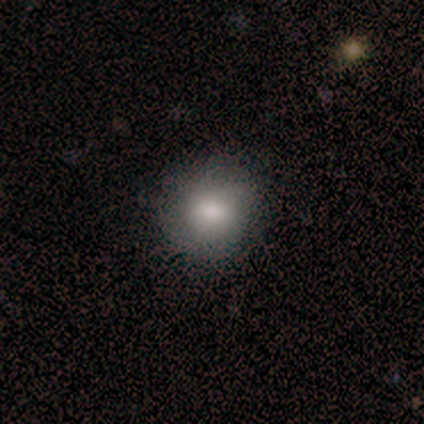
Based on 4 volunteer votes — Q: Smooth or featured?
A: smooth (75%); runner-up: featured or disk (25%)
Q: How rounded?
A: round (67%); runner-up: in between (33%)
Q: Merging?
A: none (50%); runner-up: minor disturbance (25%)